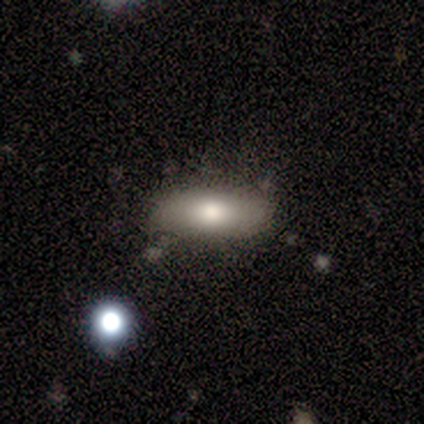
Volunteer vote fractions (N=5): Volunteers were most divided on "how rounded": in between: 80%, cigar-shaped: 20%, round: 0%. More confident: smooth or featured — smooth (100%); merging — none (80%).